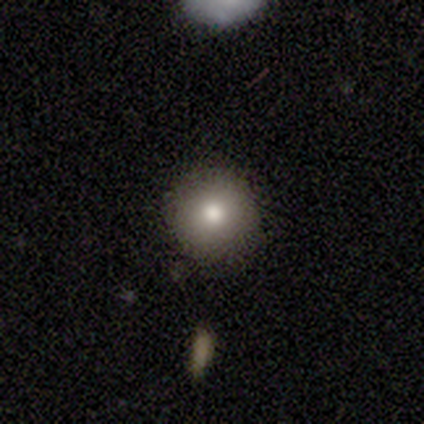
Q: Smooth or featured?
A: smooth (100%)
Q: How rounded?
A: round (100%)
Q: Merging?
A: none (100%)